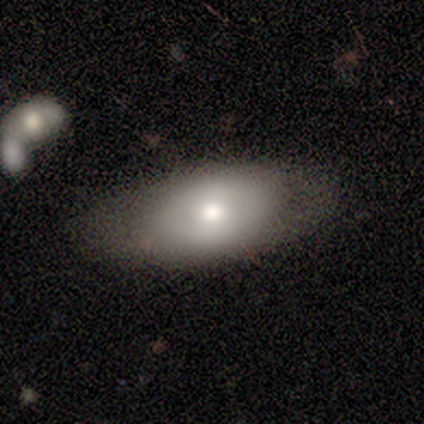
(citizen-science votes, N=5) smooth_or_featured: smooth (p=0.80) [alt: featured or disk p=0.20]
how_rounded: in between (p=1.00)
merging: none (p=0.80) [alt: minor disturbance p=0.20]